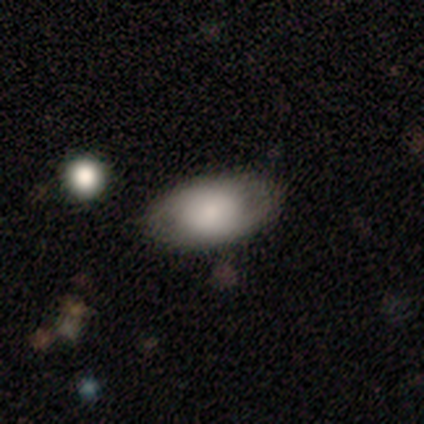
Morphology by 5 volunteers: Smooth or featured: smooth — 100%
How rounded: in between — 80% (round — 20%)
Merging: none — 80% (minor disturbance — 20%)